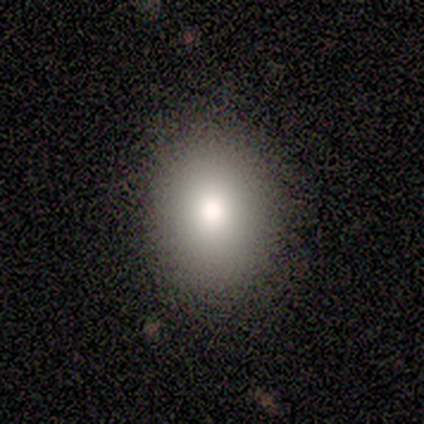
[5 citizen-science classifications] This is likely a smooth galaxy (60%). How rounded: likely round (67%). Merging: likely none (75%).